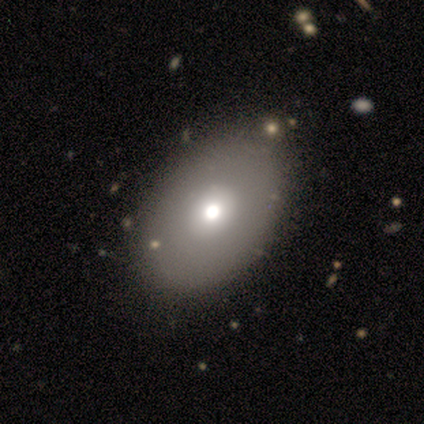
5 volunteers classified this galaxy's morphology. smooth 80%, featured or disk 20%, star or artifact 0%. Down the decision tree: how rounded — in between (75%); merging — none (100%).